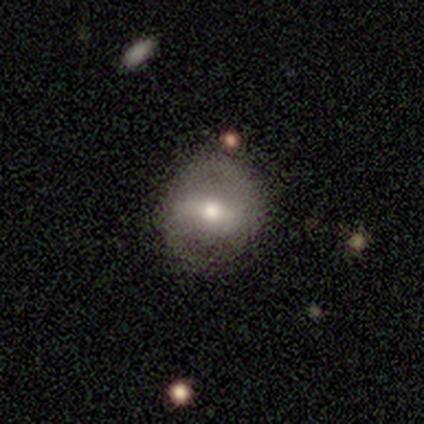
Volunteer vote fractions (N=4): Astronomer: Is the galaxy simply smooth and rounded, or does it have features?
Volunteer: smooth — 50%, tied with featured or disk at 50%.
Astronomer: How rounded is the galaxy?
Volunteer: round — 100%.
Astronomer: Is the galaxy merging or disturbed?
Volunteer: none — 75%.